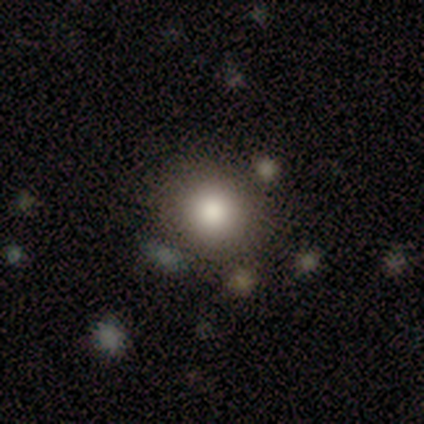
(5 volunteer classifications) Morphology: type=smooth (100%); roundness=round (100%); merging=none (100%).